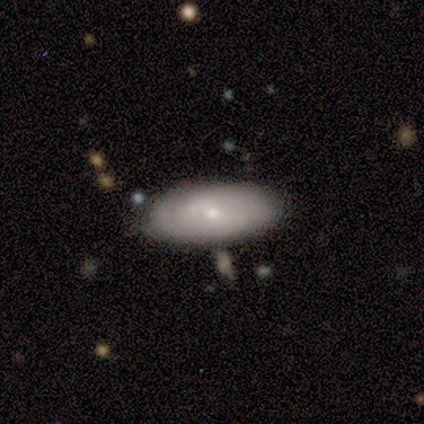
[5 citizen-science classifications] Volunteers were most divided on "smooth or featured": smooth: 60%, featured or disk: 40%, star or artifact: 0%. More confident: how rounded — in between (100%); merging — none (80%).